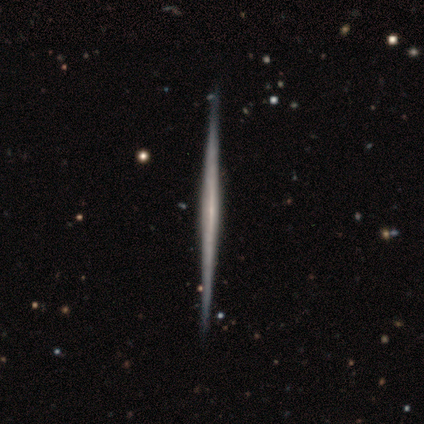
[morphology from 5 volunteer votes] Overall: featured or disk (100%). Edge-on disk: yes (100%). Edge-on bulge: none (100%). Merging: none (80%).